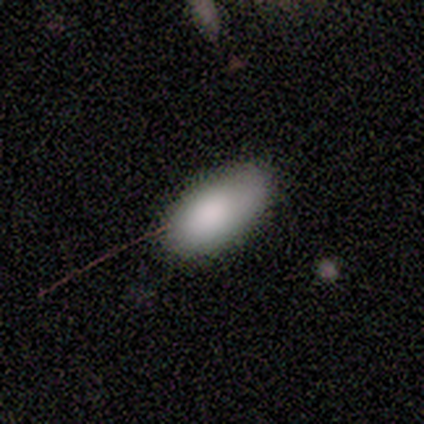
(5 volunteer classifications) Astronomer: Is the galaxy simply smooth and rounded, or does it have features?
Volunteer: smooth — 100%.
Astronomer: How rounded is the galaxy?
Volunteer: in between — 100%.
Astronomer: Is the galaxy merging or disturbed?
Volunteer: none — 100%.